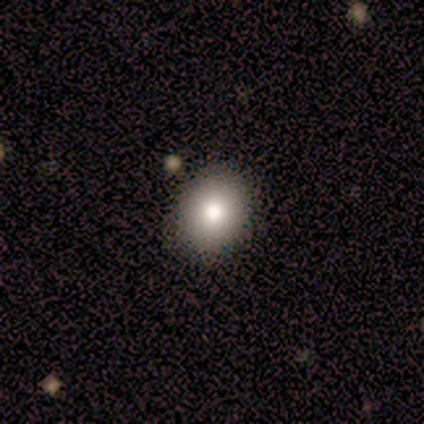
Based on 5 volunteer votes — This is clearly a smooth galaxy (100%). How rounded: likely round (60%). Merging: clearly none (80%).